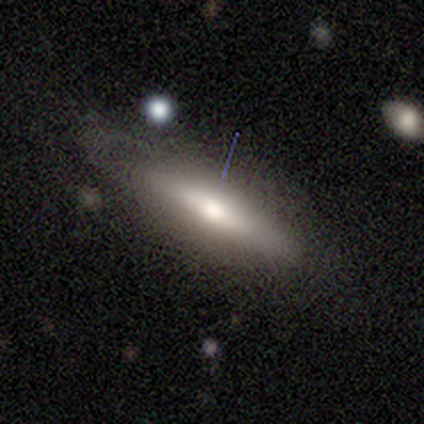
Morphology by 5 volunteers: Volunteers were most divided on "smooth or featured" (2-way tie): smooth: 40%, featured or disk: 40%, star or artifact: 20%; "merging" (2-way tie): none: 50%, minor disturbance: 50%, major disturbance: 0%, merger: 0%. More confident: how rounded — cigar-shaped (100%).